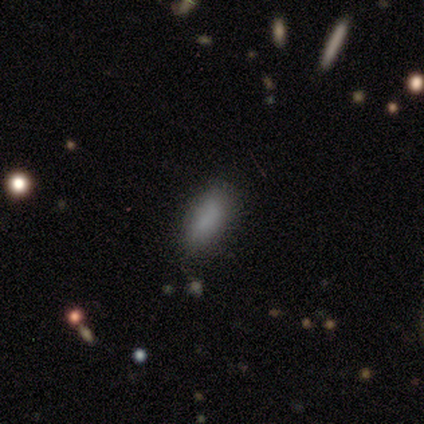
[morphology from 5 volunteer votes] A smooth galaxy with no disk features (100%) that is in between round and cigar-shaped (80%). Merging: none (100%).